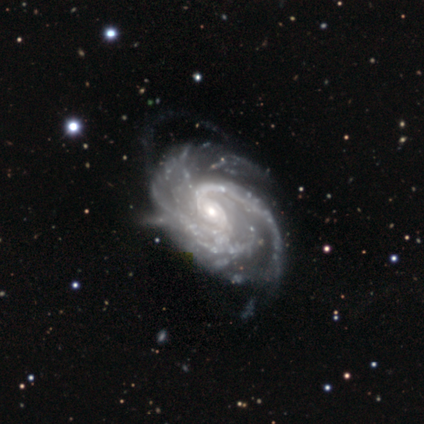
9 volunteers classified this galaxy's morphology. Smooth or featured: featured or disk — 89% (smooth — 11%)
Edge-on disk: no — 100%
Bar: no — 50% (weak — 38%)
Spiral arms: yes — 88% (no — 12%)
Spiral winding: tight — 57% (medium — 43%)
Spiral arm count: 3 — 43% (2 — 29%)
Bulge size: small — 62% (moderate — 38%)
Merging: none — 56% (minor disturbance — 22%)